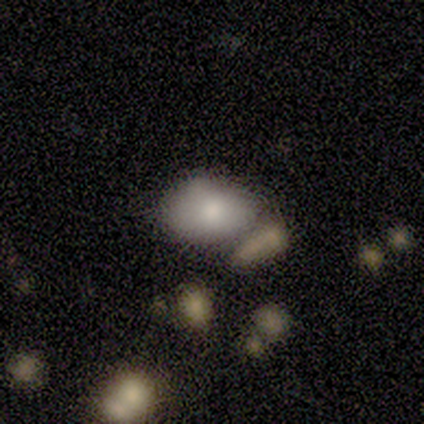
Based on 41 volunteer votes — A smooth galaxy with no disk features (76%) that is in between round and cigar-shaped (90%). Merging: none (39%).